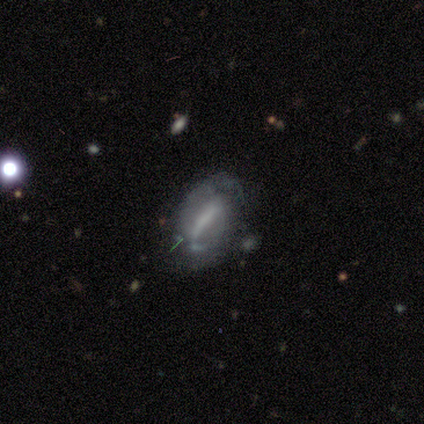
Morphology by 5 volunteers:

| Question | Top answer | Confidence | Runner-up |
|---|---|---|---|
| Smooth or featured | featured or disk | 80% | smooth (20%) |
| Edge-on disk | no | 100% | — |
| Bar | strong | 100% | — |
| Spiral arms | yes | 100% | — |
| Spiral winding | medium | 50% | tight (25%) |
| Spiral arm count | can't tell | 75% | 2 (25%) |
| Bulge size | moderate | 50% | tied: none (50%) |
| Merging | none | 60% | minor disturbance (20%) |